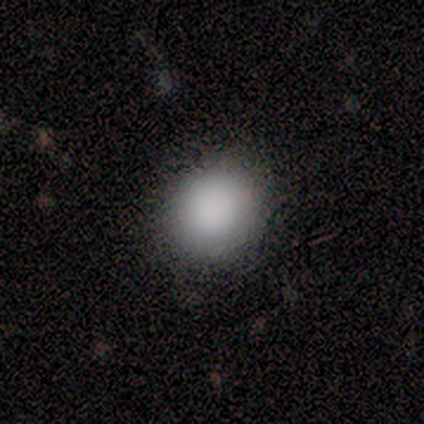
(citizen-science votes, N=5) Smooth or featured?
  - smooth: 100% *
  - featured or disk: 0%
  - star or artifact: 0%
How rounded?
  - round: 60% *
  - in between: 40%
  - cigar-shaped: 0%
Merging?
  - none: 60% *
  - minor disturbance: 40%
  - major disturbance: 0%
  - merger: 0%